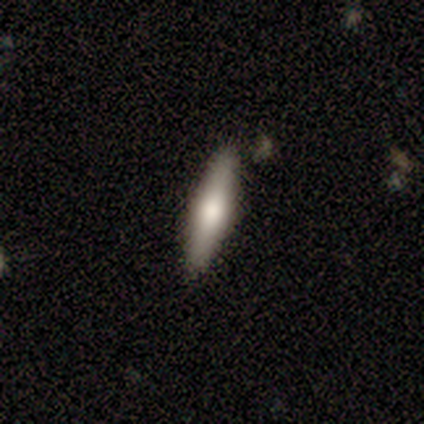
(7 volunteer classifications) Volunteers were most divided on "smooth or featured": smooth: 57%, featured or disk: 43%, star or artifact: 0%. More confident: merging — none (86%); how rounded — cigar-shaped (75%).